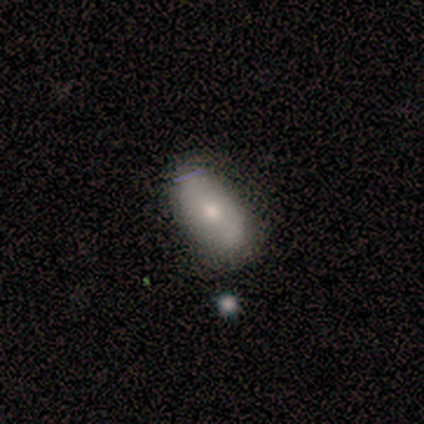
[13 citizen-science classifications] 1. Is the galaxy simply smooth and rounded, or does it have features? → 69% smooth, 23% featured or disk, 8% star or artifact.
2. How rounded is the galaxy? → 100% in between, 0% round, 0% cigar-shaped.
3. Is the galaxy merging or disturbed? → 92% none, 8% minor disturbance, 0% major disturbance, 0% merger.